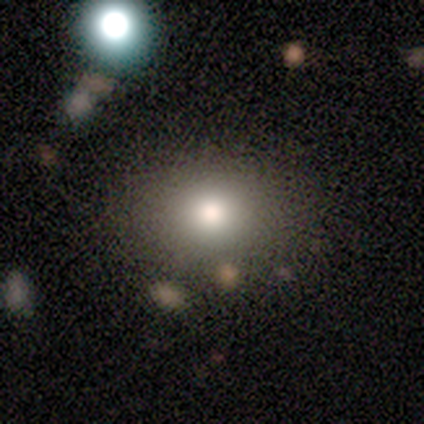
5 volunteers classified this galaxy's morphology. A smooth galaxy with no disk features (100%) that is round (80%).

Vote fractions:
- Smooth or featured? smooth: 100% / featured or disk: 0% / star or artifact: 0%
- How rounded? round: 80% / in between: 20% / cigar-shaped: 0%
- Merging? none: 80% / merger: 20% / minor disturbance: 0% / major disturbance: 0%